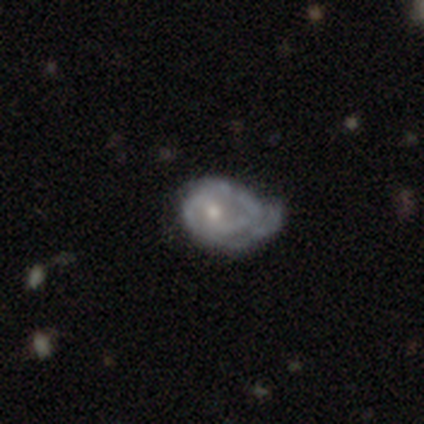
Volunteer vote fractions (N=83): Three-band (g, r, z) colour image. It shows a featured or disk galaxy (72%) with no bar (64%), 2 (53%) tight (44%) spiral arms (78%) and a small central bulge (64%). Merging: minor disturbance (52%).